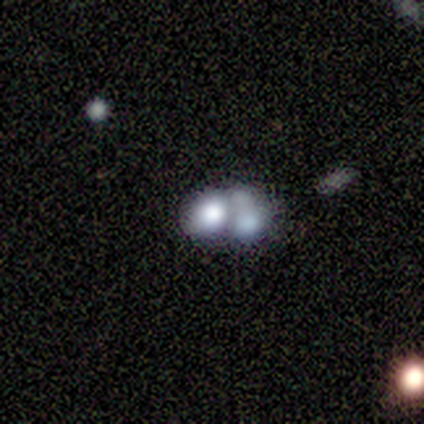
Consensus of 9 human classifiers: A featured or disk galaxy (44%) with no bar (100%), no spiral arms (100%) and a dominant central bulge (50%, tied with none).

Vote fractions:
- Smooth or featured? featured or disk: 44% / smooth: 33% / star or artifact: 22%
- Edge-on disk? no: 100% / yes: 0%
- Bar? no: 100% / strong: 0% / weak: 0%
- Spiral arms? no: 100% / yes: 0%
- Bulge size? dominant: 50% (tied) / none: 50% (tied) / large: 0% / moderate: 0% / small: 0%
- Merging? merger: 86% / major disturbance: 14% / none: 0% / minor disturbance: 0%